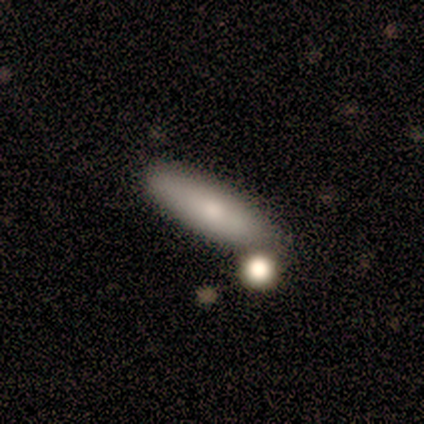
A smooth galaxy with no disk features (80%) that is in between round and cigar-shaped (50%, tied with cigar-shaped).

Vote fractions:
- Smooth or featured? smooth: 80% / featured or disk: 20% / star or artifact: 0%
- How rounded? in between: 50% (tied) / cigar-shaped: 50% (tied) / round: 0%
- Merging? none: 100% / minor disturbance: 0% / major disturbance: 0% / merger: 0%